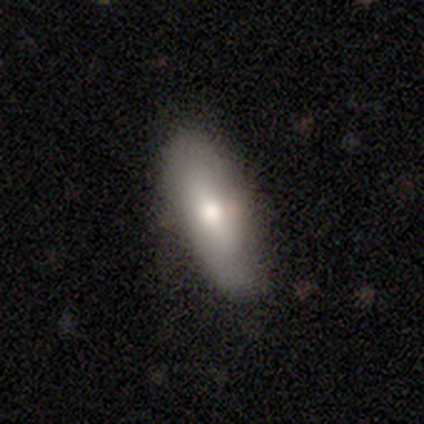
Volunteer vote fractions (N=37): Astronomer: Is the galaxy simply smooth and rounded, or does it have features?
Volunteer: smooth — 81%.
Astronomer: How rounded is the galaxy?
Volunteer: in between — 83%.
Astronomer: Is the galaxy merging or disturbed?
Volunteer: none — 63%.